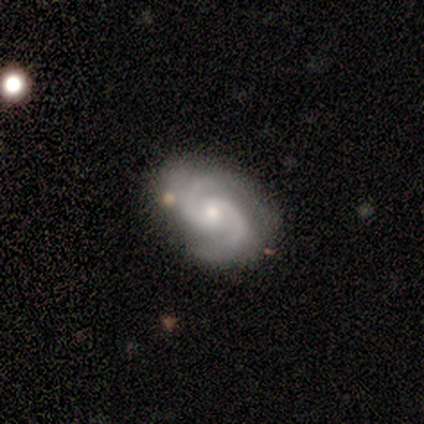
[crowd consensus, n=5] smooth_or_featured: featured or disk (p=0.60) [alt: smooth p=0.20]
disk_edge_on: no (p=0.67) [alt: yes p=0.33]
bar: strong (p=0.50) [tied with: weak p=0.50]
has_spiral_arms: yes (p=1.00)
spiral_winding: medium (p=0.50) [tied with: loose p=0.50]
spiral_arm_count: 2 (p=1.00)
bulge_size: large (p=0.50) [tied with: small p=0.50]
merging: none (p=0.50) [tied with: minor disturbance p=0.50]